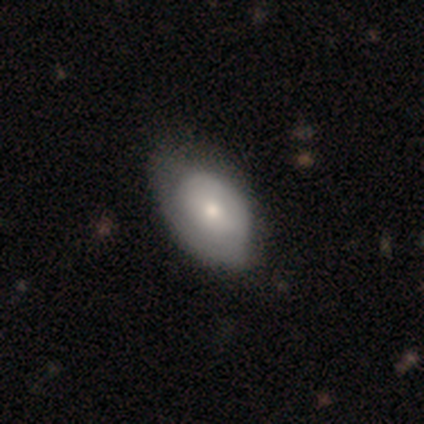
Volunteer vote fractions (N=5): Smooth or featured? 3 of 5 (60%) said featured or disk. Edge-on disk? 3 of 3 (100%) said no. Bar? 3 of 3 (100%) said no. Spiral arms? 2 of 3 (67%) said no. Bulge size? 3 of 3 (100%) said moderate. Merging? 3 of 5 (60%) said major disturbance.